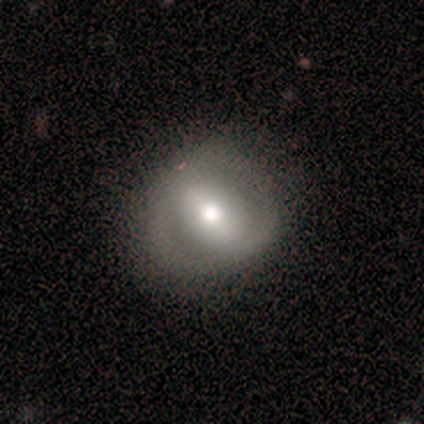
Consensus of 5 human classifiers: This appears to be a smooth galaxy with no disk features (40%, tied with featured or disk) that is round (100%). Merging: none (75%).